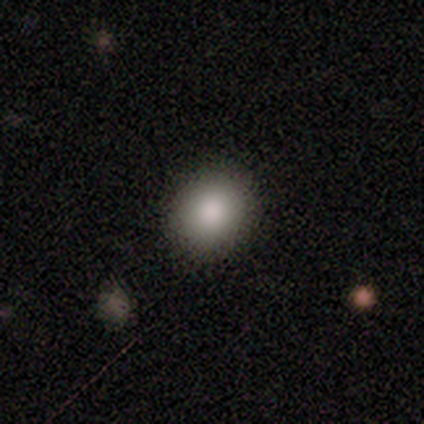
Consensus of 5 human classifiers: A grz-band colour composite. It shows a smooth galaxy with no disk features (80%) that is round (50%, tied with in between). Merging: none (50%, tied with minor disturbance).